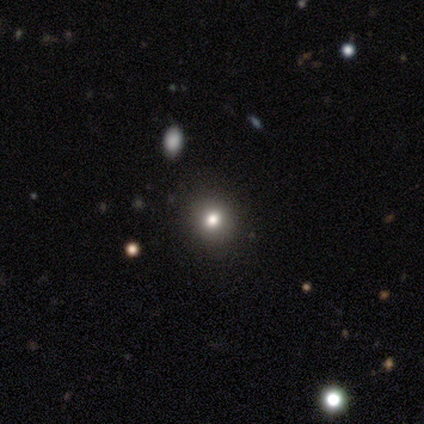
Smooth or featured?
  - smooth: 50% * (tied)
  - featured or disk: 50% * (tied)
  - star or artifact: 0%
How rounded?
  - round: 100% *
  - in between: 0%
  - cigar-shaped: 0%
Merging?
  - none: 100% *
  - minor disturbance: 0%
  - major disturbance: 0%
  - merger: 0%